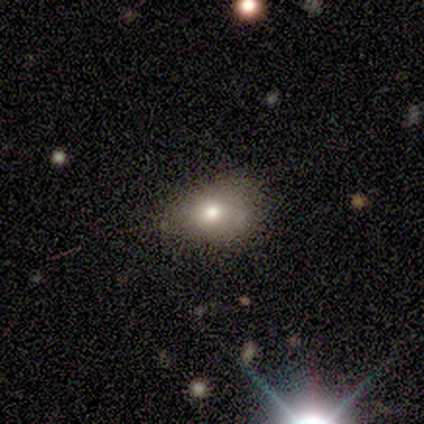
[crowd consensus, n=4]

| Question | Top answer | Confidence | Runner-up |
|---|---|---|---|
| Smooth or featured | smooth | 50% | tied: featured or disk (50%) |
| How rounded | in between | 100% | — |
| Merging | none | 75% | minor disturbance (25%) |